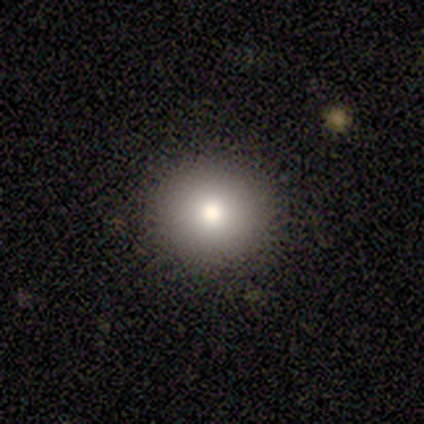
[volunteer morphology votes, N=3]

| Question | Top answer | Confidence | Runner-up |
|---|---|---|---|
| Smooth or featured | smooth | 67% | featured or disk (33%) |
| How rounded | round | 100% | — |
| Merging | none | 100% | — |